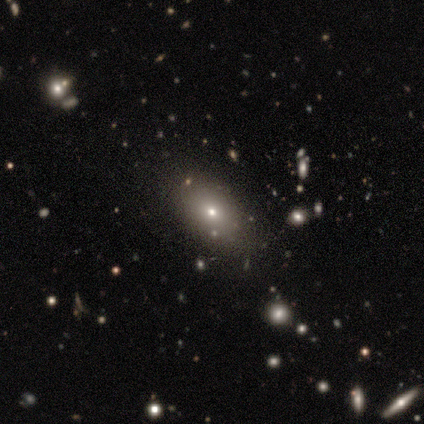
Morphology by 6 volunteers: Volunteers were most divided on "merging": none: 60%, minor disturbance: 40%, major disturbance: 0%, merger: 0%. More confident: how rounded — in between (100%); smooth or featured — smooth (83%).